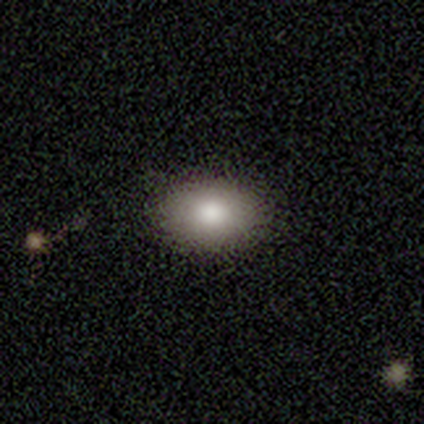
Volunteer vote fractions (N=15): This appears to be a smooth galaxy with no disk features (80%) that is in between round and cigar-shaped (92%). Merging: none (87%).